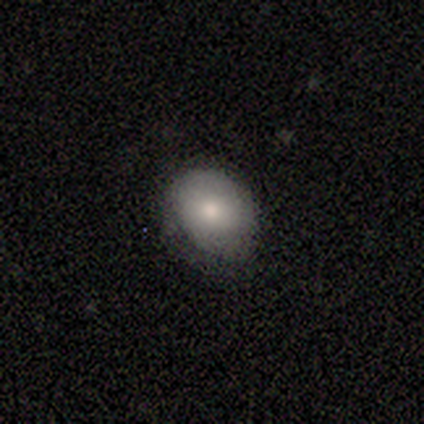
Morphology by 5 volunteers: Smooth or featured? smooth (100%)
How rounded? in between (80%)
Merging? none (80%)